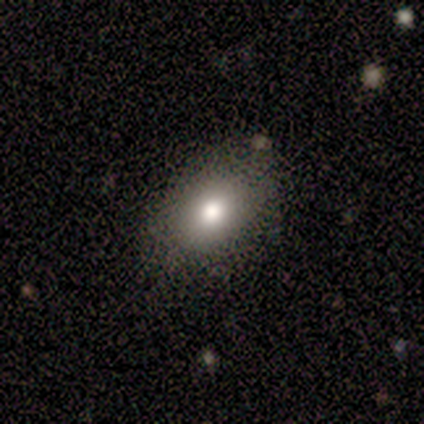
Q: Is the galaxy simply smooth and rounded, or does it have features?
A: smooth — 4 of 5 (80%).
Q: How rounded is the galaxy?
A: in between — 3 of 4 (75%).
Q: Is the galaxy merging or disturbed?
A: none — 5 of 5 (100%).